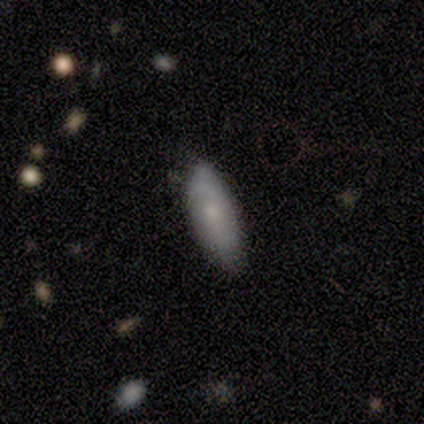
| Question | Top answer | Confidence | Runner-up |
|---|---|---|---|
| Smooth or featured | smooth | 72% | featured or disk (24%) |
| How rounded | in between | 66% | cigar-shaped (34%) |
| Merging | none | 67% | minor disturbance (27%) |